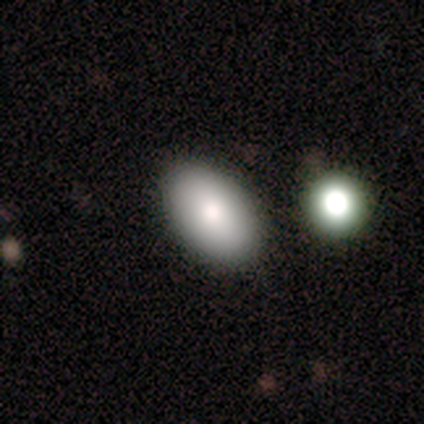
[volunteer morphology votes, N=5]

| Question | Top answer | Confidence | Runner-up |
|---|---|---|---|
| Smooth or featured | smooth | 60% | featured or disk (40%) |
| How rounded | in between | 100% | — |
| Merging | none | 100% | — |